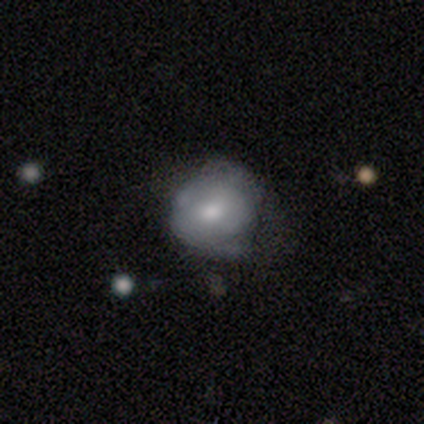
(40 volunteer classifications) This is possibly a smooth galaxy (50%). How rounded: clearly round (85%). Merging: marginally none (32%).